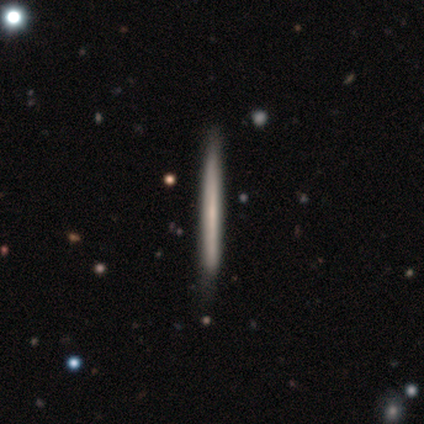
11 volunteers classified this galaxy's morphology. Q: Smooth or featured?
A: smooth (64%); runner-up: featured or disk (27%)
Q: How rounded?
A: cigar-shaped (100%)
Q: Merging?
A: none (80%); runner-up: minor disturbance (10%)